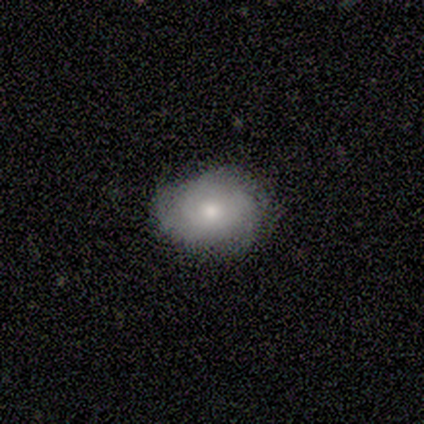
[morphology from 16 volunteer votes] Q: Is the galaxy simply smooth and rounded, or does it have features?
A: smooth — 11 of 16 (69%).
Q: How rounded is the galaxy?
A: in between — 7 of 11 (64%).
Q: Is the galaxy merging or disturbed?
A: none — 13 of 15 (87%).